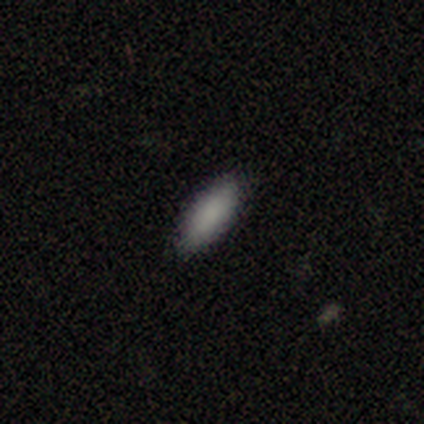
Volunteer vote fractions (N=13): Smooth or featured? 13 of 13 (100%) said smooth. How rounded? 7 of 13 (54%) said cigar-shaped. Merging? 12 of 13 (92%) said none.